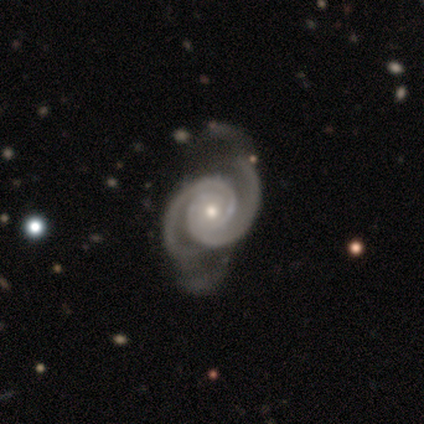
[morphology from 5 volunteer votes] Q: Smooth or featured?
A: featured or disk (80%); runner-up: star or artifact (20%)
Q: Edge-on disk?
A: no (100%)
Q: Bar?
A: no (75%); runner-up: weak (25%)
Q: Spiral arms?
A: yes (100%)
Q: Spiral winding?
A: tight (75%); runner-up: medium (25%)
Q: Spiral arm count?
A: 2 (75%); runner-up: 3 (25%)
Q: Bulge size?
A: small (100%)
Q: Merging?
A: none (50%); runner-up: minor disturbance (25%)